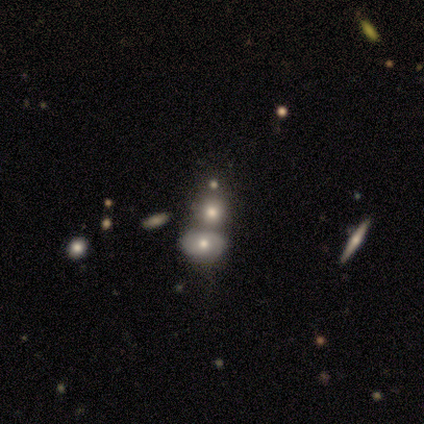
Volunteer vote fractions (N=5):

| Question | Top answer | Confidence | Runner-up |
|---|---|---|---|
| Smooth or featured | smooth | 60% | featured or disk (40%) |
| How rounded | in between | 100% | — |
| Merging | none | 60% | merger (40%) |